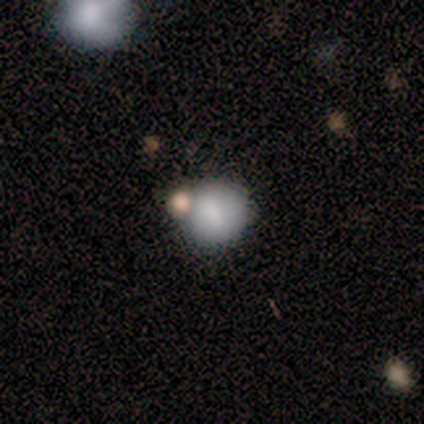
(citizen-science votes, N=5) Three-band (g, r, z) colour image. It shows a smooth galaxy with no disk features (80%) that is round (75%). Merging: none (60%).